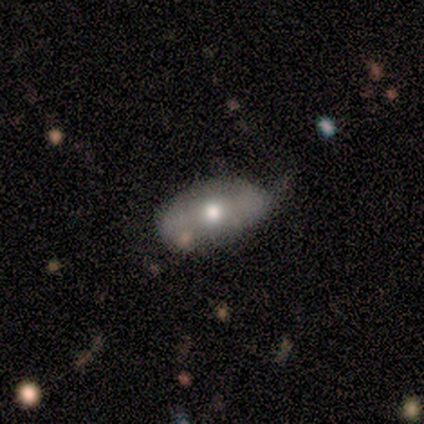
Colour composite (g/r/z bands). It shows a featured or disk galaxy (60%) with no bar (67%), no spiral arms (67%) and a moderate central bulge (100%). Merging: minor disturbance (60%).